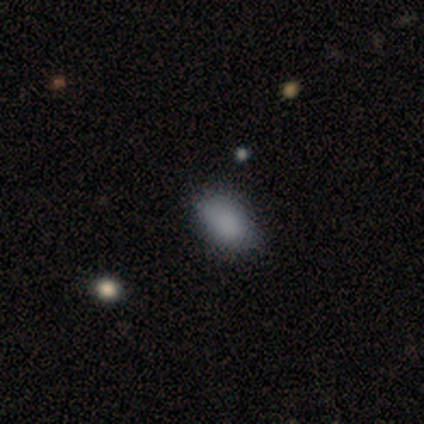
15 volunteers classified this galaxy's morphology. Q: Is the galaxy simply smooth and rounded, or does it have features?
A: smooth — 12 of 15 (80%).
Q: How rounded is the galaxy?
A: in between — 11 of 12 (92%).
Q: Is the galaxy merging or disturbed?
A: none — 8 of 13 (62%).